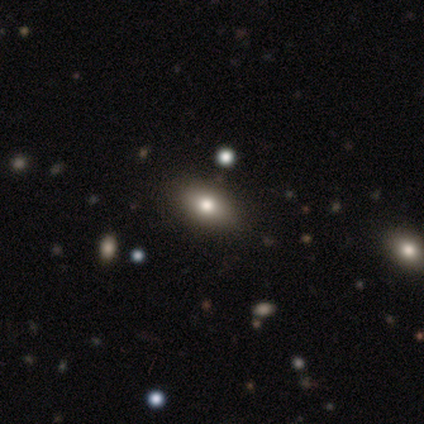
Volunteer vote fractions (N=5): This is marginally a smooth galaxy (40%, tied with star or artifact). How rounded: clearly in between (100%). Merging: clearly none (100%).